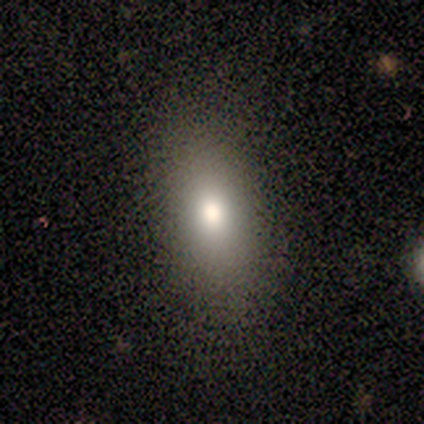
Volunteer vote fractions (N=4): A smooth galaxy with no disk features (100%) that is in between round and cigar-shaped (100%).

Vote fractions:
- Smooth or featured? smooth: 100% / featured or disk: 0% / star or artifact: 0%
- How rounded? in between: 100% / round: 0% / cigar-shaped: 0%
- Merging? none: 100% / minor disturbance: 0% / major disturbance: 0% / merger: 0%